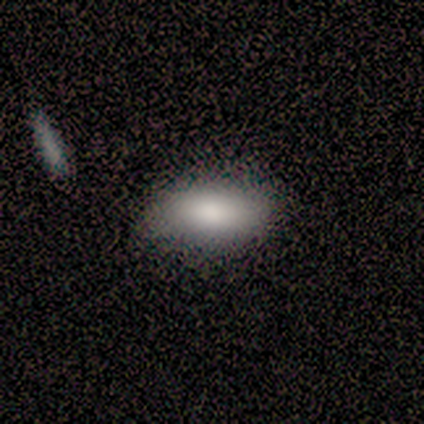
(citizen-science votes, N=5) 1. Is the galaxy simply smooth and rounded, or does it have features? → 100% smooth, 0% featured or disk, 0% star or artifact.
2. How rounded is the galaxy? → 100% in between, 0% round, 0% cigar-shaped.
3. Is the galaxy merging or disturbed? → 80% none, 20% minor disturbance, 0% major disturbance, 0% merger.